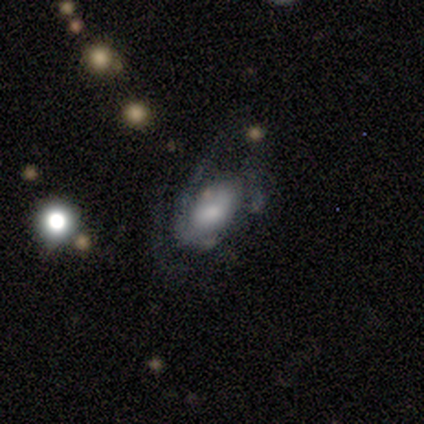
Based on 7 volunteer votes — Overall: featured or disk (71%). Edge-on disk: no (100%). Bar: no (60%; weak 40%). Spiral arms: yes (60%; no 40%). Spiral arm count: 3 (67%; 1 33%). Spiral winding: loose (67%; medium 33%). Bulge size: moderate (80%). Merging: major disturbance (57%; none 29%).